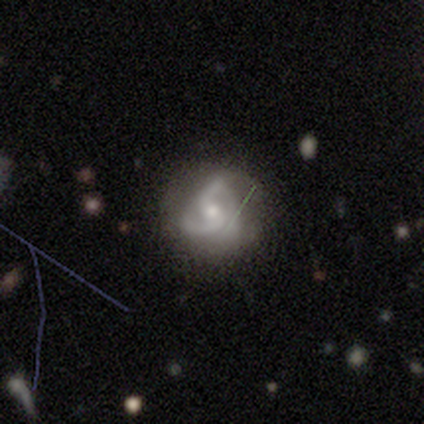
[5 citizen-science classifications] Volunteers were most divided on "spiral winding" (2-way tie): tight: 50%, medium: 50%, loose: 0%; "spiral arm count" (2-way tie): 2: 50%, 3: 50%, 1: 0%, 4: 0%, more than 4: 0%, can't tell: 0%; "bulge size" (2-way tie): moderate: 50%, small: 50%, dominant: 0%, large: 0%, none: 0%. More confident: edge-on disk — no (100%); spiral arms — yes (100%); merging — none (100%); smooth or featured — featured or disk (80%); bar — strong (50%).